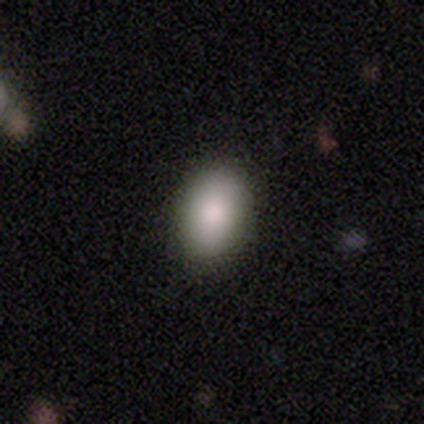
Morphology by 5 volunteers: This appears to be a smooth galaxy with no disk features (80%) that is in between round and cigar-shaped (75%). Merging: none (100%).